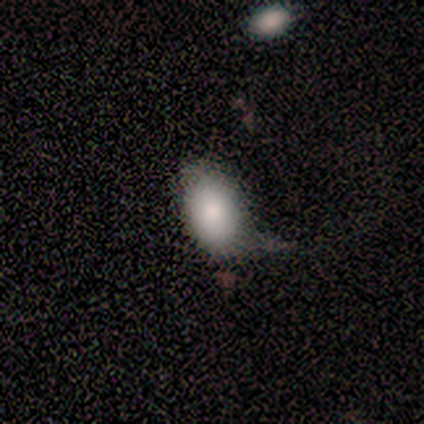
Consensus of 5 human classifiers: A smooth galaxy with no disk features (60%) that is in between round and cigar-shaped (100%).

Vote fractions:
- Smooth or featured? smooth: 60% / featured or disk: 40% / star or artifact: 0%
- How rounded? in between: 100% / round: 0% / cigar-shaped: 0%
- Merging? minor disturbance: 60% / none: 20% / major disturbance: 20% / merger: 0%